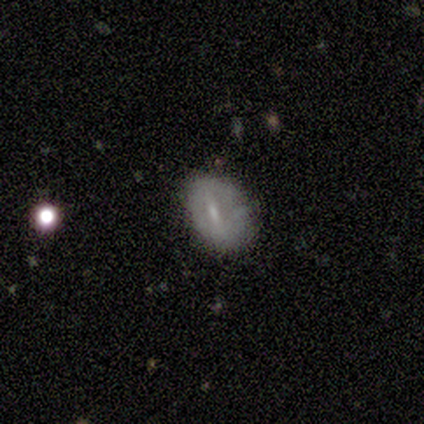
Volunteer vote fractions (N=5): A smooth galaxy with no disk features (60%) that is in between round and cigar-shaped (100%).

Vote fractions:
- Smooth or featured? smooth: 60% / featured or disk: 40% / star or artifact: 0%
- How rounded? in between: 100% / round: 0% / cigar-shaped: 0%
- Merging? minor disturbance: 60% / none: 20% / major disturbance: 20% / merger: 0%